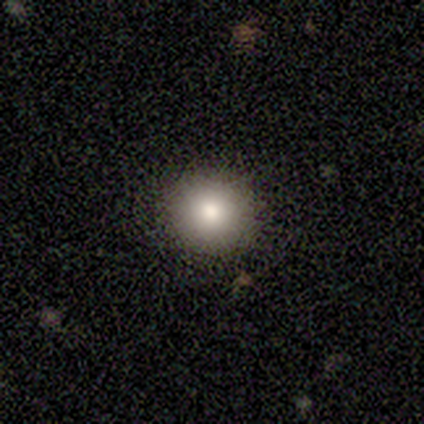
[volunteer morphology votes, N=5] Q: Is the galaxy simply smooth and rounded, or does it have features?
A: smooth — 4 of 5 (80%).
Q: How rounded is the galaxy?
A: round — 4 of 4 (100%).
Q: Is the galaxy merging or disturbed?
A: none — 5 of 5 (100%).